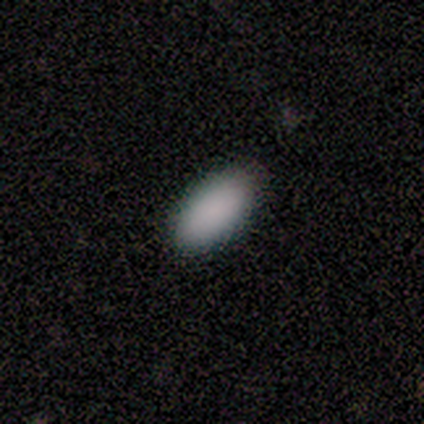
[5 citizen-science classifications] Smooth or featured: smooth — 80% (star or artifact — 20%)
How rounded: in between — 100%
Merging: none — 100%